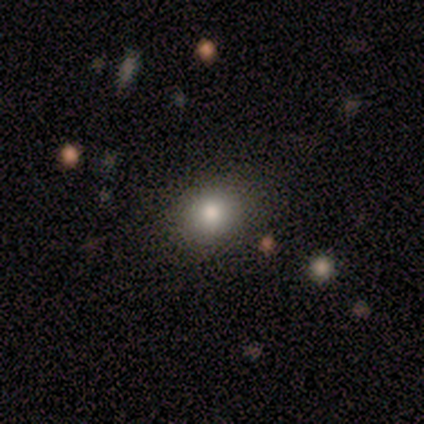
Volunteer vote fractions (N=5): Morphology: type=smooth (100%); roundness=round (60%); merging=none (40%, tied with major disturbance).